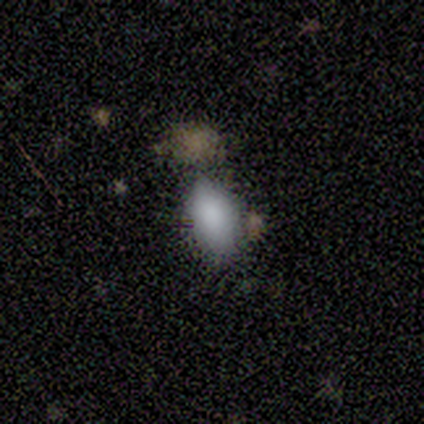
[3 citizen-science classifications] A smooth galaxy with no disk features (100%) that is in between round and cigar-shaped (67%). Merging: none (67%).